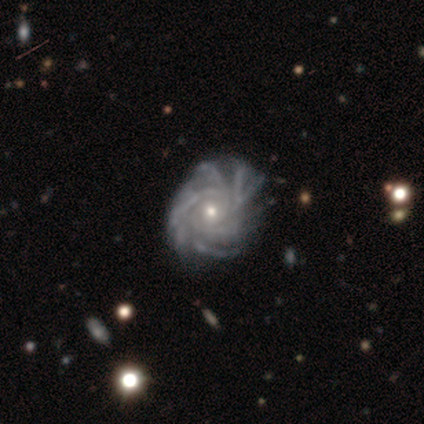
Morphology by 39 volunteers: A featured or disk galaxy (97%) with no bar (78%), more than 4 (81%) tight (62%) spiral arms (100%) and a small central bulge (59%).

Vote fractions:
- Smooth or featured? featured or disk: 97% / star or artifact: 3% / smooth: 0%
- Edge-on disk? no: 97% / yes: 3%
- Bar? no: 78% / weak: 16% / strong: 5%
- Spiral arms? yes: 100% / no: 0%
- Spiral winding? tight: 62% / medium: 30% / loose: 8%
- Spiral arm count? more than 4: 81% / can't tell: 11% / 4: 5% / 3: 3% / 1: 0% / 2: 0%
- Bulge size? small: 59% / moderate: 35% / large: 3% / none: 3% / dominant: 0%
- Merging? none: 74% / minor disturbance: 21% / major disturbance: 5% / merger: 0%